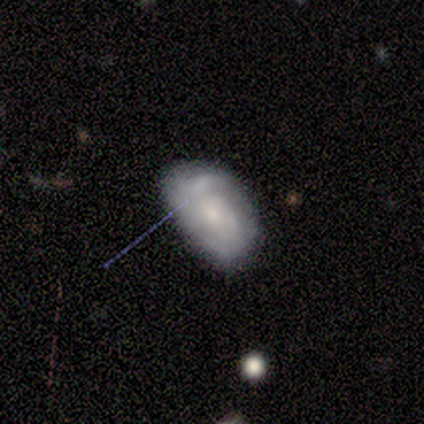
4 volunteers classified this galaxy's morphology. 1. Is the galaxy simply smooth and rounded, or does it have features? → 75% featured or disk, 25% smooth, 0% star or artifact.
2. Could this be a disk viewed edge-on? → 100% no, 0% yes.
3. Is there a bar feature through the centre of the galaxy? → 67% weak, 33% strong, 0% no.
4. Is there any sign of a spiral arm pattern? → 100% yes, 0% no.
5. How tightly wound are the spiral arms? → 67% loose, 33% tight, 0% medium.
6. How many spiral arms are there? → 100% 2, 0% 1, 0% 3, 0% 4, 0% more than 4, 0% can't tell.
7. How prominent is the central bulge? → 67% small, 33% moderate, 0% dominant, 0% large, 0% none.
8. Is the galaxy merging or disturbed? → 75% none, 25% minor disturbance, 0% major disturbance, 0% merger.